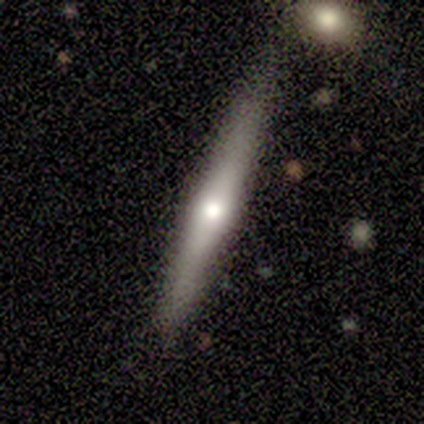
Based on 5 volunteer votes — featured or disk 60%, smooth 40%, star or artifact 0%. Down the decision tree: edge-on disk — yes (100%); edge-on bulge — rounded (100%); merging — none (100%).